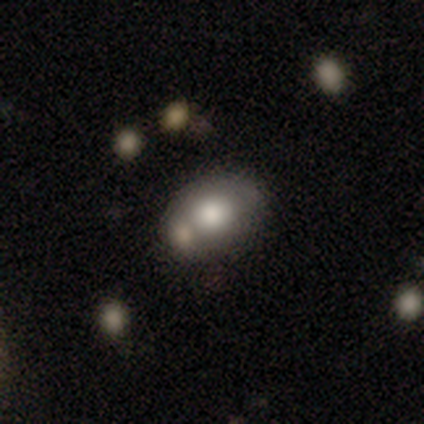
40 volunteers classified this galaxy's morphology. Smooth or featured? 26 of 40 (65%) said smooth. How rounded? 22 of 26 (85%) said in between. Merging? 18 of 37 (49%) said none.